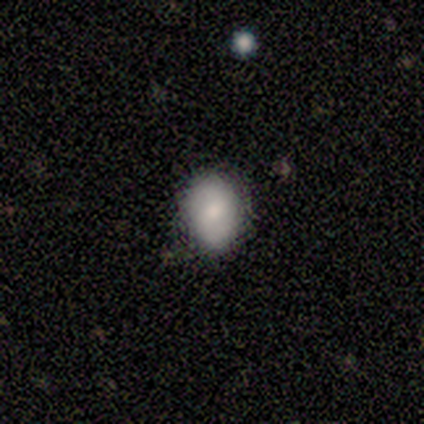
smooth 100%, featured or disk 0%, star or artifact 0%. Down the decision tree: how rounded — round (67%); merging — none (100%).